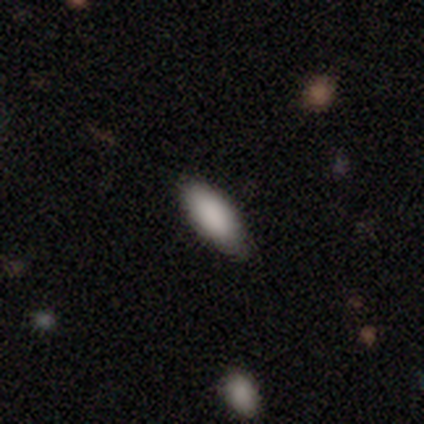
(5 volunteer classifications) smooth_or_featured: smooth (p=1.00)
how_rounded: in between (p=1.00)
merging: none (p=1.00)